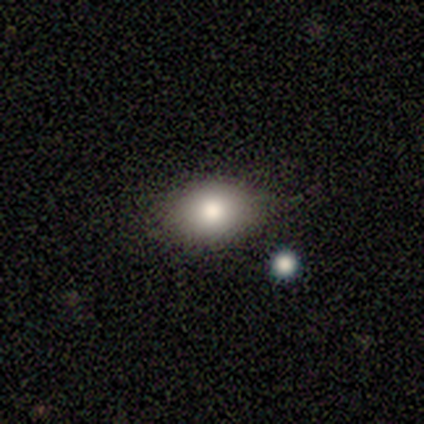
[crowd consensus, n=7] Morphology: type=smooth (86%); roundness=in between (67%); merging=none (83%).